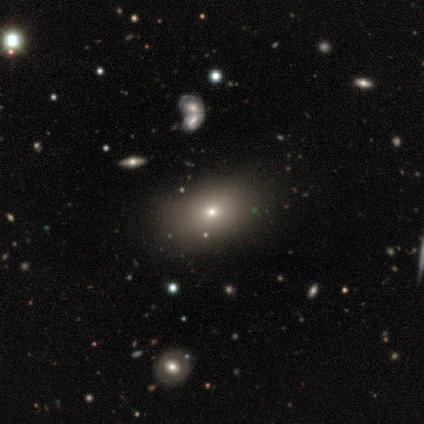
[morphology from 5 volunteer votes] smooth_or_featured: smooth (p=1.00)
how_rounded: in between (p=0.80) [alt: round p=0.20]
merging: none (p=1.00)